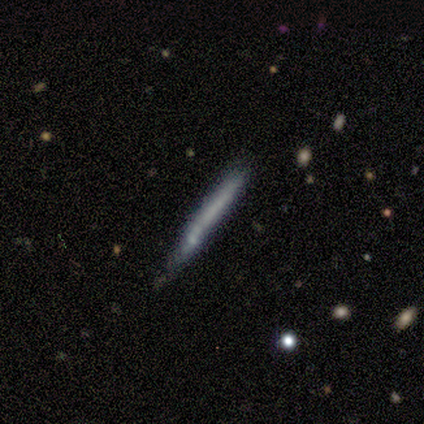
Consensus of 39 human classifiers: smooth-or-featured: smooth: 59% | featured or disk: 36% | star or artifact: 5%
  how-rounded: cigar-shaped: 96% | in between: 4% | round: 0%
  merging: none: 76% | minor disturbance: 19% | merger: 5% | major disturbance: 0%